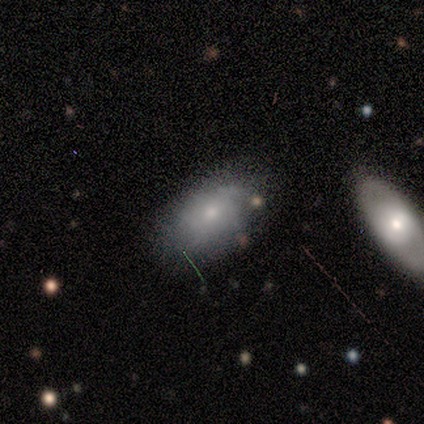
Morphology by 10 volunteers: A smooth galaxy with no disk features (50%) that is in between round and cigar-shaped (100%). Merging: none (89%).